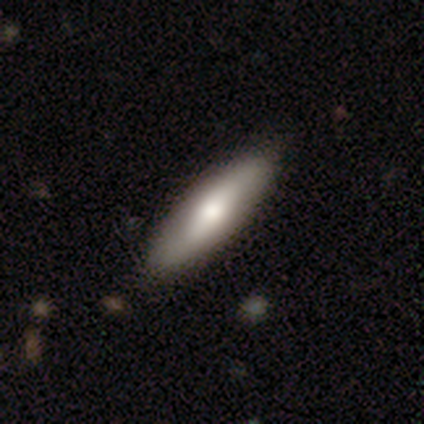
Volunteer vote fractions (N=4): A smooth galaxy with no disk features (75%) that is cigar-shaped (100%). Merging: none (100%).